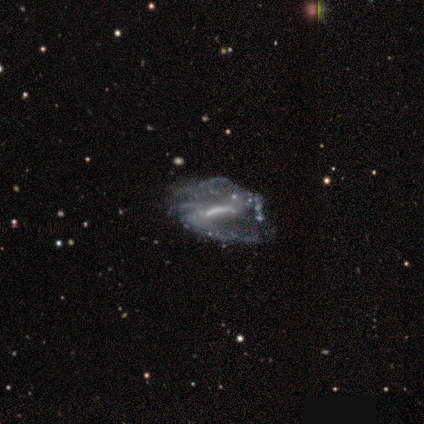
This is clearly a featured or disk galaxy (100%). It is clearly not viewed edge-on (100%). Bar: clearly strong (100%). Spiral arm pattern: likely yes (60%). Spiral arm count: likely can't tell (67%). Spiral winding: likely medium (67%). Central bulge: marginally small (40%, tied with none). Merging: likely none (60%).